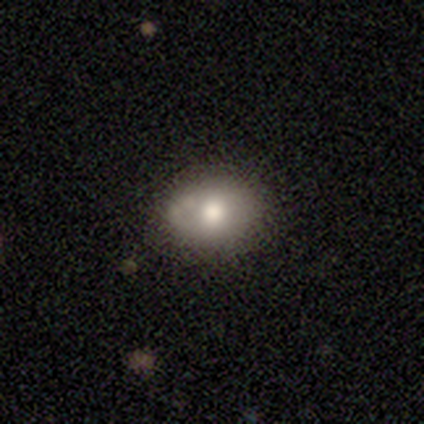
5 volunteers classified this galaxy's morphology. type=featured or disk (80%); edge-on=no (75%); bar=no (100%); spiral arms=no (67%); bulge=moderate (100%); merging=none (80%).